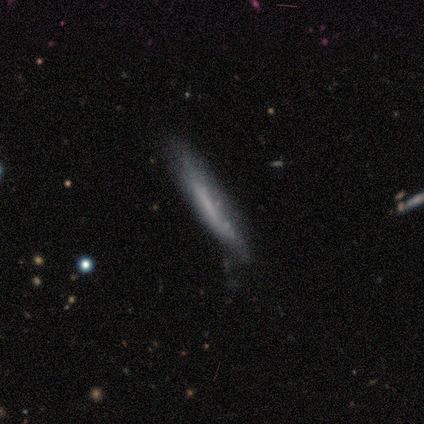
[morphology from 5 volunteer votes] Smooth or featured? 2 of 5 (40%, tied with featured or disk) said smooth. How rounded? 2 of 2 (100%) said cigar-shaped. Merging? 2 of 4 (50%, tied with minor disturbance) said none.